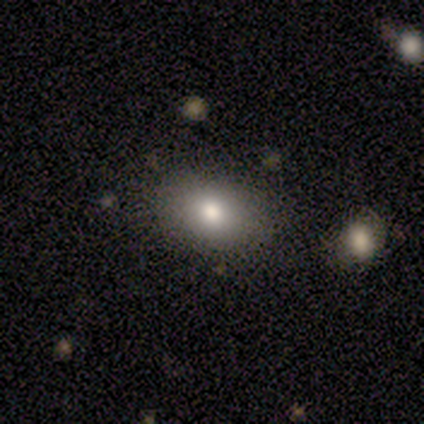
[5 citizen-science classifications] Smooth or featured?
  - smooth: 80% *
  - star or artifact: 20%
  - featured or disk: 0%
How rounded?
  - in between: 100% *
  - round: 0%
  - cigar-shaped: 0%
Merging?
  - none: 75% *
  - minor disturbance: 25%
  - major disturbance: 0%
  - merger: 0%